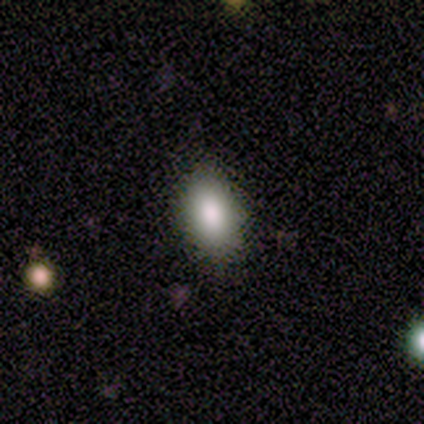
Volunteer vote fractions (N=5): Smooth or featured: smooth — 40% (tied with featured or disk — 40%)
How rounded: in between — 100%
Merging: none — 75% (minor disturbance — 25%)